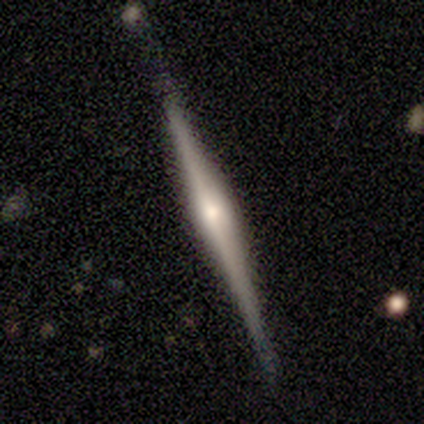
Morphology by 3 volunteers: smooth_or_featured: featured or disk (p=1.00)
disk_edge_on: yes (p=1.00)
edge_on_bulge: rounded (p=1.00)
merging: none (p=0.33) [tied with: minor disturbance p=0.33, major disturbance p=0.33]